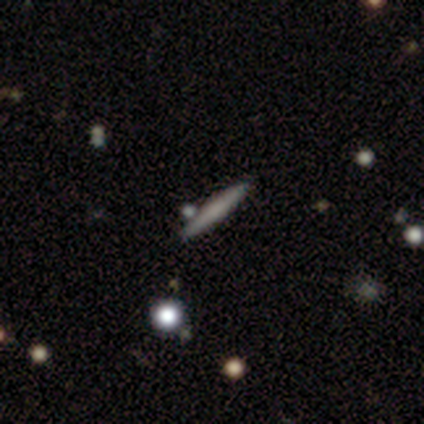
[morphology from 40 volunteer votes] Volunteers were most divided on "smooth or featured": smooth: 52%, featured or disk: 40%, star or artifact: 8%. More confident: how rounded — cigar-shaped (95%); merging — none (78%).